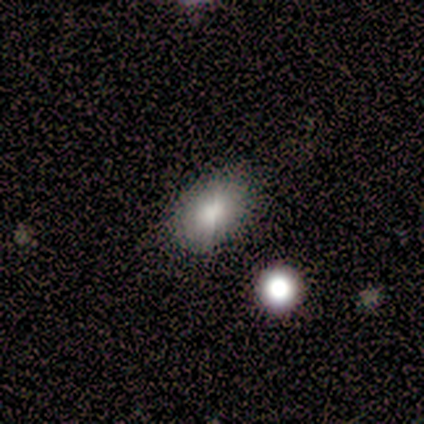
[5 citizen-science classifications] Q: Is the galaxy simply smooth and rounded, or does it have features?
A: smooth — 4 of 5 (80%).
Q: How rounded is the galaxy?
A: in between — 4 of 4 (100%).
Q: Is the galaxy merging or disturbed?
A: none — 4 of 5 (80%).